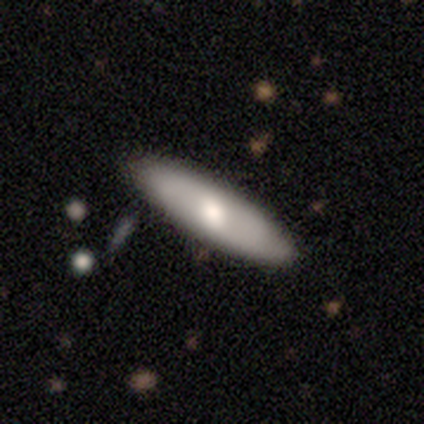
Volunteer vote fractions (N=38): Smooth or featured? 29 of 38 (76%) said smooth. How rounded? 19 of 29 (66%) said cigar-shaped. Merging? 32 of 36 (89%) said none.